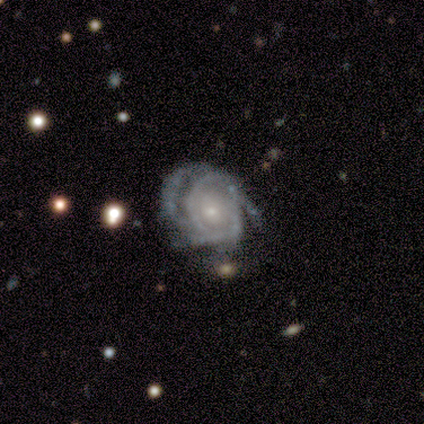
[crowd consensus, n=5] This is clearly a featured or disk galaxy (80%). It is clearly not viewed edge-on (100%). Bar: clearly no (100%). Spiral arm pattern: likely yes (75%). Spiral arm count: likely 3 (67%). Spiral winding: clearly tight (100%). Central bulge: possibly moderate (50%, tied with small). Merging: clearly none (80%).